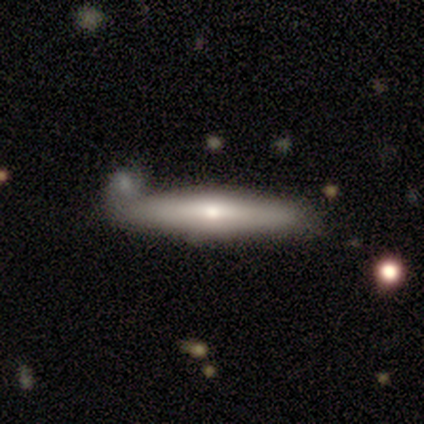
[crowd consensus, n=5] Volunteers were most divided on "smooth or featured": featured or disk: 60%, smooth: 40%, star or artifact: 0%. More confident: edge-on disk — yes (100%); merging — none (80%); edge-on bulge — rounded (67%).